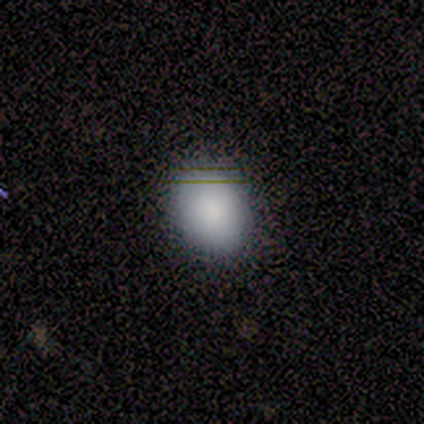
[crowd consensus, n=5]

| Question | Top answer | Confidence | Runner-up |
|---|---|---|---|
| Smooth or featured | smooth | 100% | — |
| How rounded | in between | 100% | — |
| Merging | none | 60% | minor disturbance (40%) |